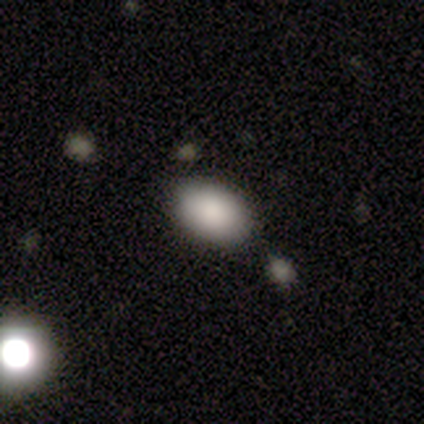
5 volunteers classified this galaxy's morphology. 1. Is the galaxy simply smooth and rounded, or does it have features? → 80% smooth, 20% star or artifact, 0% featured or disk.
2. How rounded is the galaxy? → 100% in between, 0% round, 0% cigar-shaped.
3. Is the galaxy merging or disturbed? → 100% none, 0% minor disturbance, 0% major disturbance, 0% merger.